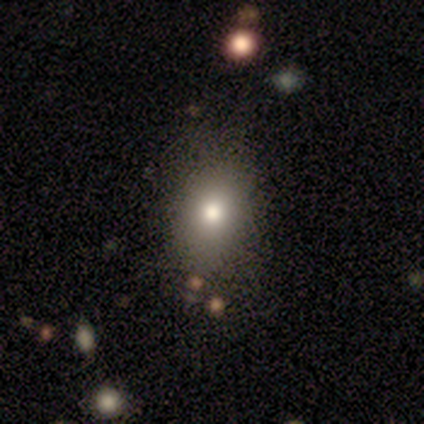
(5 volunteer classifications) Morphology: type=smooth (80%); roundness=round (75%); merging=none (100%).